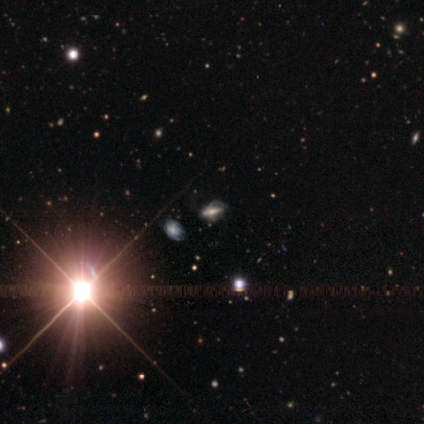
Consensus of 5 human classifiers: Q: Smooth or featured?
A: featured or disk (60%); runner-up: star or artifact (40%)
Q: Edge-on disk?
A: no (67%); runner-up: yes (33%)
Q: Bar?
A: strong (100%)
Q: Spiral arms?
A: yes (50%); tied with: no (50%)
Q: Spiral winding?
A: medium (100%)
Q: Spiral arm count?
A: can't tell (100%)
Q: Bulge size?
A: moderate (50%); tied with: small (50%)
Q: Merging?
A: none (67%); runner-up: major disturbance (33%)